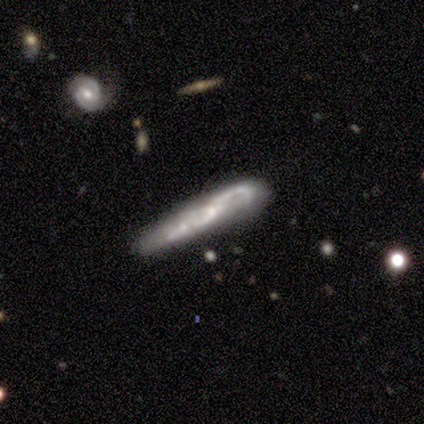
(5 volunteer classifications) smooth_or_featured: featured or disk (p=0.80) [alt: smooth p=0.20]
disk_edge_on: no (p=0.75) [alt: yes p=0.25]
bar: weak (p=0.67) [alt: no p=0.33]
has_spiral_arms: yes (p=1.00)
spiral_winding: loose (p=1.00)
spiral_arm_count: 2 (p=0.67) [alt: 1 p=0.33]
bulge_size: small (p=0.67) [alt: none p=0.33]
merging: none (p=0.80) [alt: merger p=0.20]